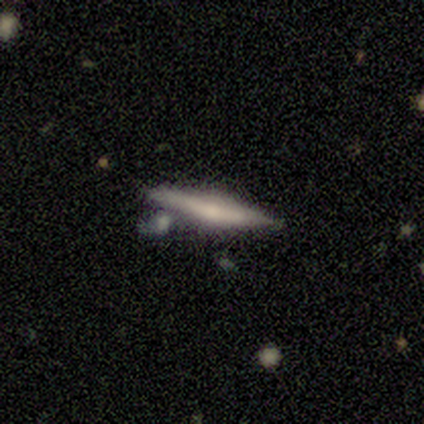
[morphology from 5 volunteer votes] This is clearly a featured or disk galaxy (80%). It is clearly viewed edge-on (100%). Edge-on bulge: clearly rounded (100%). Merging: likely none (75%).